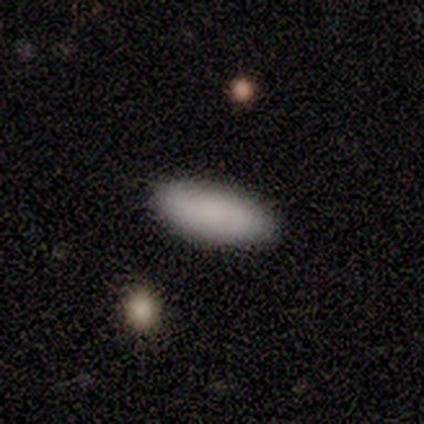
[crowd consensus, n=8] This appears to be a smooth galaxy with no disk features (88%) that is in between round and cigar-shaped (100%). Merging: none (100%).